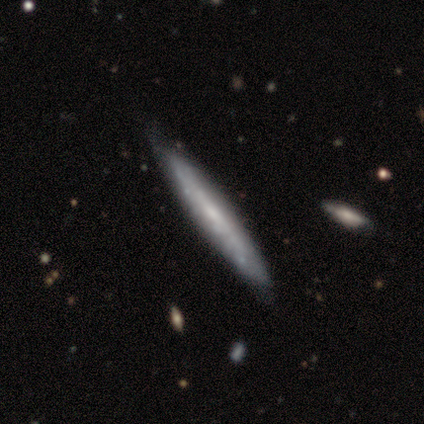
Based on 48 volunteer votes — Smooth or featured? featured or disk (60%)
Edge-on disk? yes (76%)
Edge-on bulge? none (73%)
Merging? none (72%)